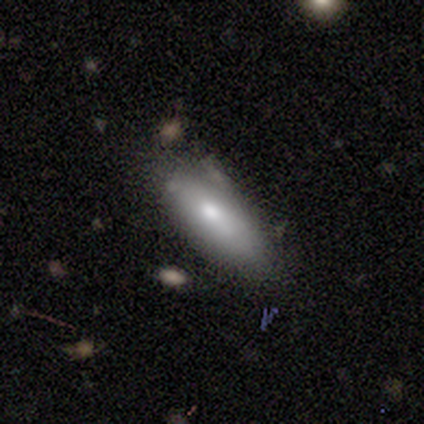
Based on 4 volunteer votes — Morphology: type=smooth (100%); roundness=in between (75%); merging=minor disturbance (50%).